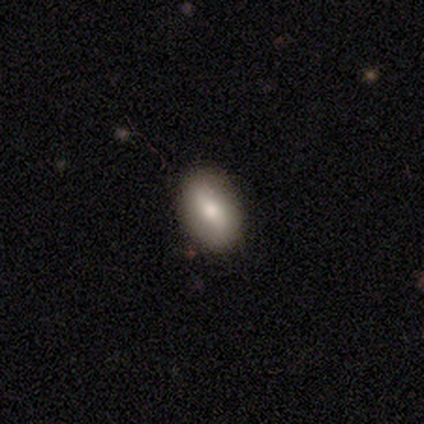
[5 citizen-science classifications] Overall: smooth (60%; featured or disk 20%). How rounded: in between (67%; cigar-shaped 33%). Merging: none (50%, tied with minor disturbance).